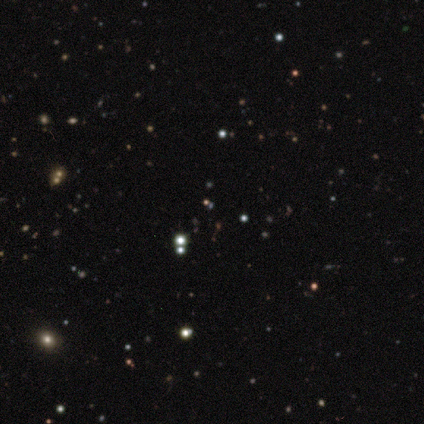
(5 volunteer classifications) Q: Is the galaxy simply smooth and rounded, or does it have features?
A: star or artifact — 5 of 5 (100%).